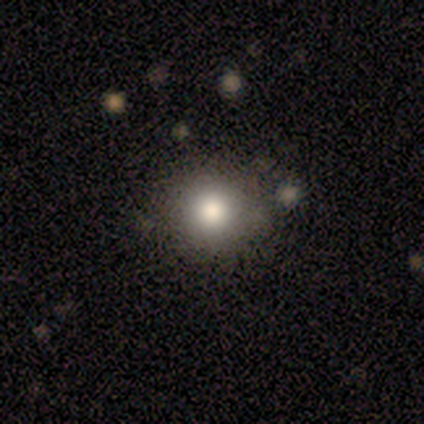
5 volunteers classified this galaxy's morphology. Overall: star or artifact (60%; smooth 20%).